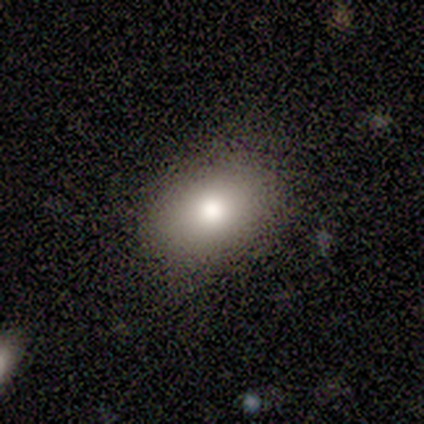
smooth 80%, star or artifact 20%, featured or disk 0%. Down the decision tree: how rounded — in between (100%); merging — none (75%).